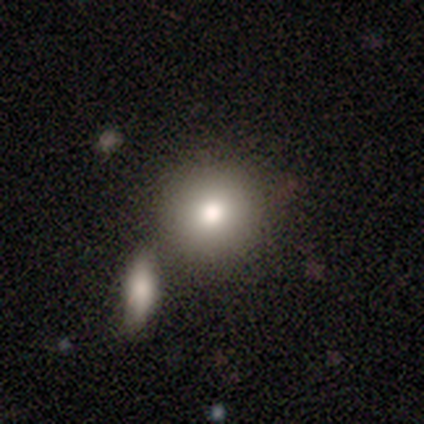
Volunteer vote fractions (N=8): Smooth or featured? smooth (88%)
How rounded? round (100%)
Merging? none (75%)